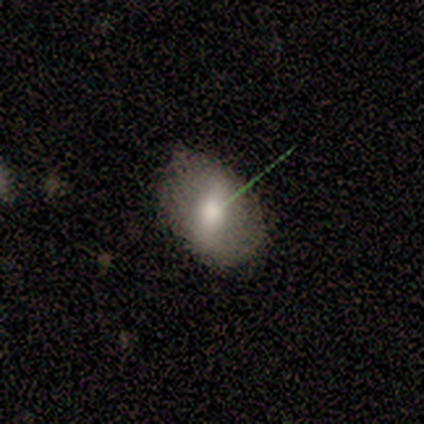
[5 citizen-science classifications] Volunteers were most divided on "smooth or featured": smooth: 60%, featured or disk: 20%, star or artifact: 20%. More confident: how rounded — in between (100%); merging — none (75%).